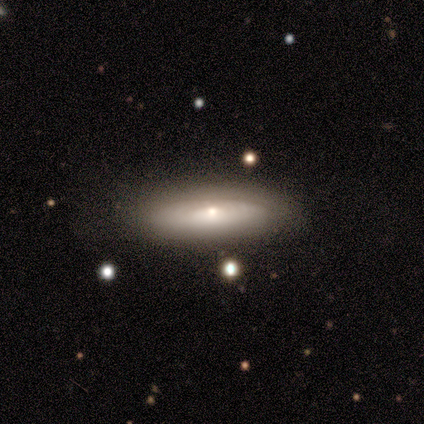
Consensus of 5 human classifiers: smooth_or_featured: featured or disk (p=0.60) [alt: smooth p=0.40]
disk_edge_on: yes (p=0.67) [alt: no p=0.33]
edge_on_bulge: rounded (p=1.00)
merging: none (p=1.00)